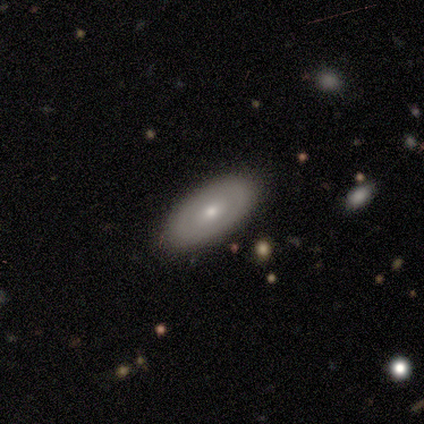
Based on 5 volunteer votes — smooth-or-featured: smooth: 60% | featured or disk: 40% | star or artifact: 0%
  how-rounded: in between: 67% | cigar-shaped: 33% | round: 0%
  merging: none: 80% | minor disturbance: 20% | major disturbance: 0% | merger: 0%